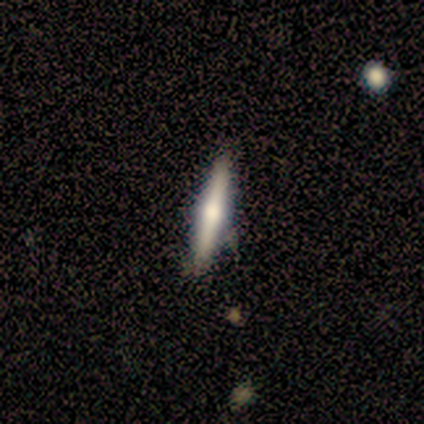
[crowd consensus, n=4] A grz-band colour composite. It shows a smooth galaxy with no disk features (75%) that is cigar-shaped (100%). Merging: none (75%).